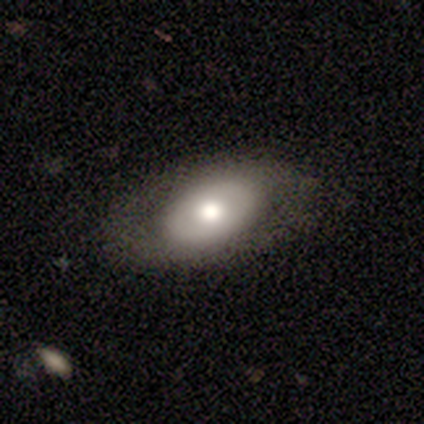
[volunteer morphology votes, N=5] Volunteers were most divided on "smooth or featured": smooth: 80%, featured or disk: 20%, star or artifact: 0%. More confident: how rounded — in between (100%); merging — none (80%).